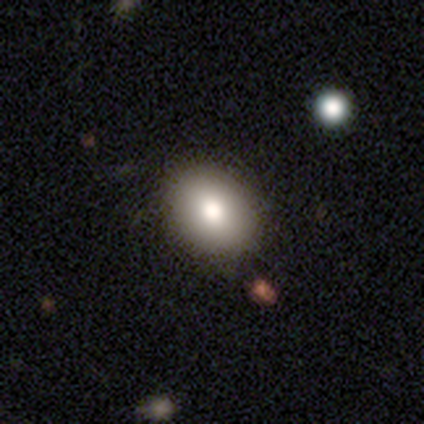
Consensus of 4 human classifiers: A smooth galaxy with no disk features (100%) that is round (75%). Merging: none (100%).